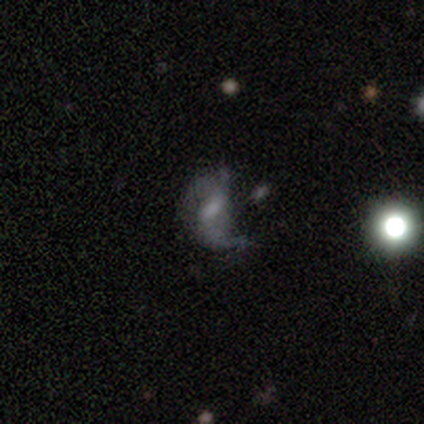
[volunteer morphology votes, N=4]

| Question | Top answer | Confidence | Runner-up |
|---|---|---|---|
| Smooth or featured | featured or disk | 75% | star or artifact (25%) |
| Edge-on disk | no | 100% | — |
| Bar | strong | 33% | tied: weak (33%), no (33%) |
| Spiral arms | yes | 100% | — |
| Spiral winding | medium | 67% | loose (33%) |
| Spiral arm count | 2 | 100% | — |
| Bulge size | moderate | 67% | small (33%) |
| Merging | none | 33% | tied: minor disturbance (33%), major disturbance (33%) |